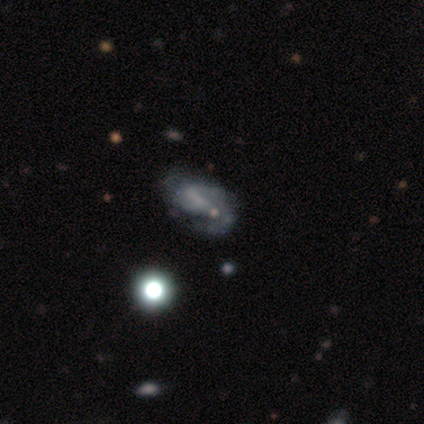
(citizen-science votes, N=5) This appears to be a featured or disk galaxy (80%) with a weak bar (75%), 2 (67%) medium (67%) spiral arms (75%) and no central bulge (75%). Merging: none (100%).